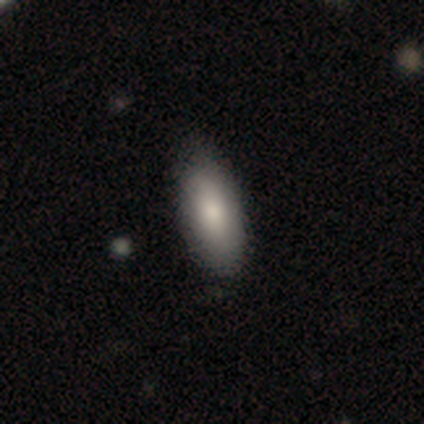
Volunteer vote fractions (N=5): A smooth galaxy with no disk features (80%) that is in between round and cigar-shaped (75%).

Vote fractions:
- Smooth or featured? smooth: 80% / featured or disk: 20% / star or artifact: 0%
- How rounded? in between: 75% / cigar-shaped: 25% / round: 0%
- Merging? none: 80% / minor disturbance: 20% / major disturbance: 0% / merger: 0%